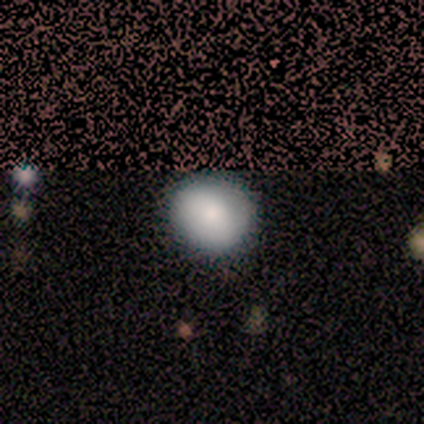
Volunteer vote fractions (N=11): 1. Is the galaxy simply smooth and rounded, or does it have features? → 82% smooth, 18% featured or disk, 0% star or artifact.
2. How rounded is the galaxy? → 100% round, 0% in between, 0% cigar-shaped.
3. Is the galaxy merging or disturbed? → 91% none, 9% merger, 0% minor disturbance, 0% major disturbance.